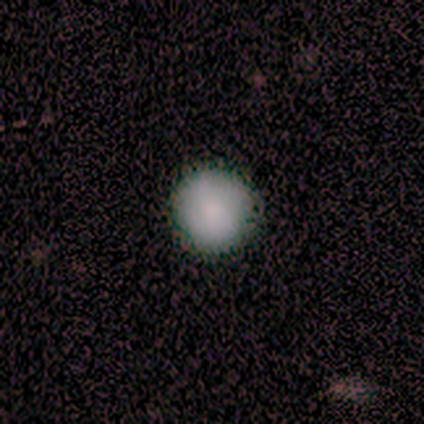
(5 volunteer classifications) Overall: smooth (100%). How rounded: round (100%). Merging: none (100%).